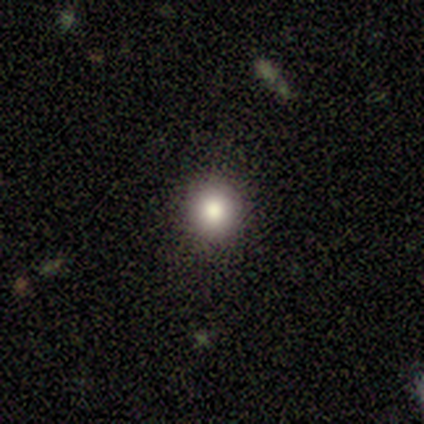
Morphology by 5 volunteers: Smooth or featured? smooth (80%)
How rounded? round (100%)
Merging? none (100%)